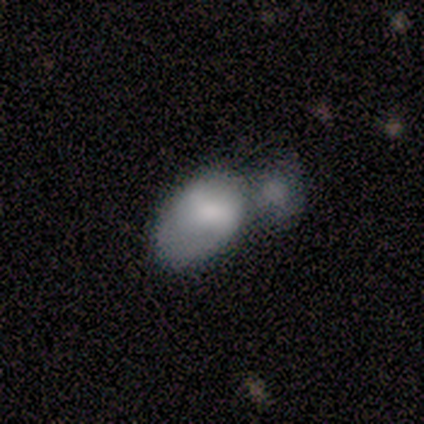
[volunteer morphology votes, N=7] A featured or disk galaxy (57%) with no bar (75%), 2 (100%) medium (50%, tied with loose) spiral arms (50%, tied with no) and a small central bulge (75%). Merging: minor disturbance (33%, tied with major disturbance).